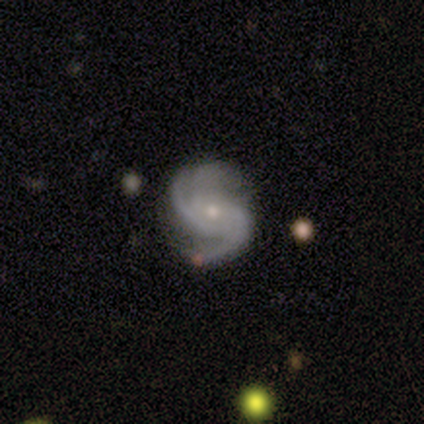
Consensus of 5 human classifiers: Volunteers were most divided on "bar" (2-way tie): weak: 40%, no: 40%, strong: 20%. More confident: smooth or featured — featured or disk (100%); edge-on disk — no (100%); spiral arms — yes (100%); merging — none (80%); spiral winding — medium (60%); bulge size — small (60%); spiral arm count — 3 (60%).